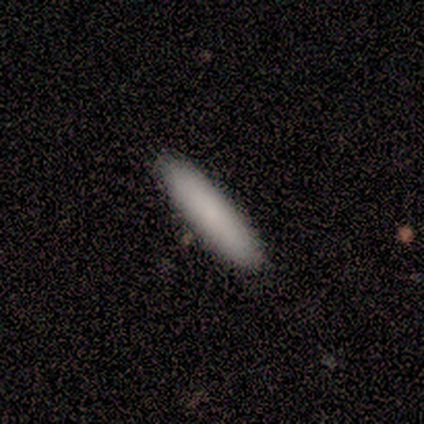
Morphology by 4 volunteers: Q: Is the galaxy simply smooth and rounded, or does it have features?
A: smooth — 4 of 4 (100%).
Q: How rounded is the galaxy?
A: cigar-shaped — 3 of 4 (75%).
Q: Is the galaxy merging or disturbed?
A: none — 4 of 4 (100%).